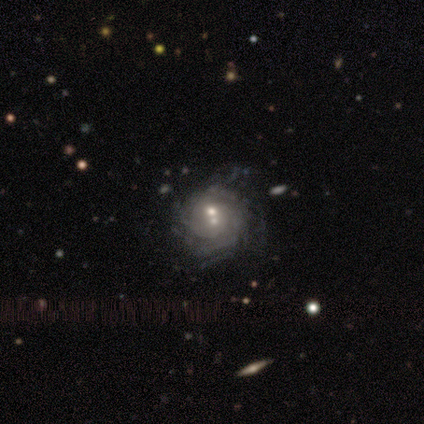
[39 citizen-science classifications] Morphology: type=featured or disk (82%); edge-on=no (97%); bar=no (77%); spiral arms=yes (90%); winding=tight (61%); arm count=can't tell (50%); bulge=moderate (48%); merging=none (42%).